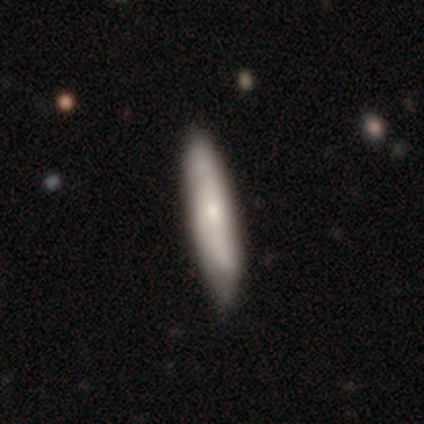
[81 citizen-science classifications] Smooth or featured? 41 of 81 (51%) said smooth. How rounded? 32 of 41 (78%) said cigar-shaped. Merging? 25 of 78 (32%) said none.